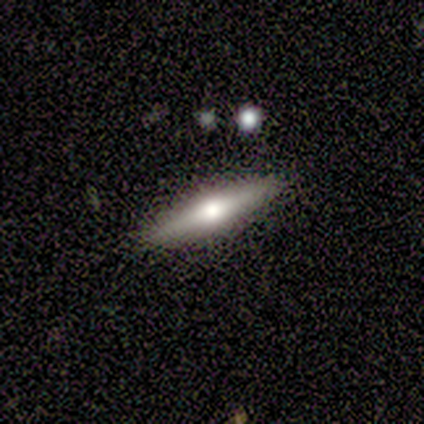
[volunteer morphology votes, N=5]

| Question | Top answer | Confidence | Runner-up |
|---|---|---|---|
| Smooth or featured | featured or disk | 100% | — |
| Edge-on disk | yes | 100% | — |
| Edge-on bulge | rounded | 100% | — |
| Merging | none | 100% | — |